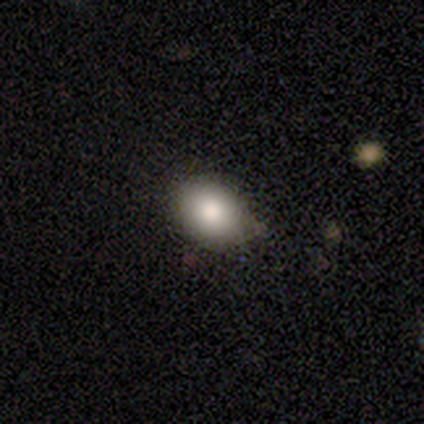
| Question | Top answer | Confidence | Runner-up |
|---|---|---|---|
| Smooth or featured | smooth | 100% | — |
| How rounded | round | 100% | — |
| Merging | none | 75% | minor disturbance (25%) |